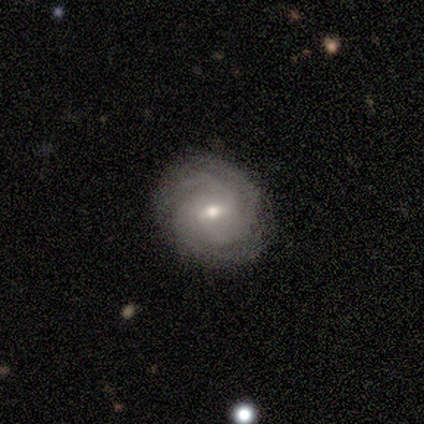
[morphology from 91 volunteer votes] Smooth or featured: featured or disk — 88% (smooth — 9%)
Edge-on disk: no — 95% (yes — 5%)
Bar: weak — 68% (no — 24%)
Spiral arms: yes — 99% (no — 1%)
Spiral winding: tight — 76% (medium — 21%)
Spiral arm count: 3 — 52% (can't tell — 23%)
Bulge size: moderate — 59% (small — 38%)
Merging: none — 90% (minor disturbance — 6%)